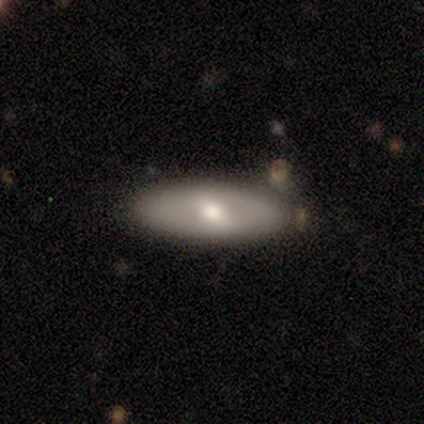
A featured or disk galaxy (60%) viewed edge-on (67%) with a rounded central bulge (100%).

Vote fractions:
- Smooth or featured? featured or disk: 60% / smooth: 40% / star or artifact: 0%
- Edge-on disk? yes: 67% / no: 33%
- Edge-on bulge? rounded: 100% / boxy: 0% / none: 0%
- Merging? none: 100% / minor disturbance: 0% / major disturbance: 0% / merger: 0%